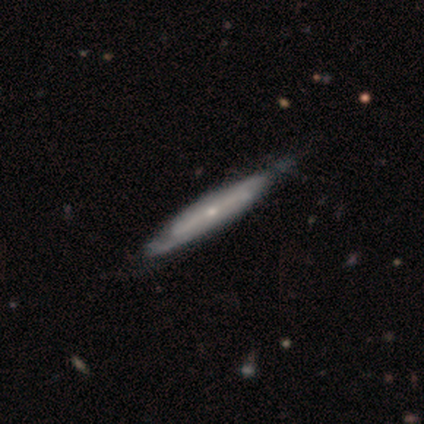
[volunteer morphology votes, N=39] Smooth or featured: featured or disk — 87% (smooth — 13%)
Edge-on disk: yes — 56% (no — 44%)
Edge-on bulge: none — 47% (tied with rounded — 47%)
Merging: none — 46% (minor disturbance — 21%)